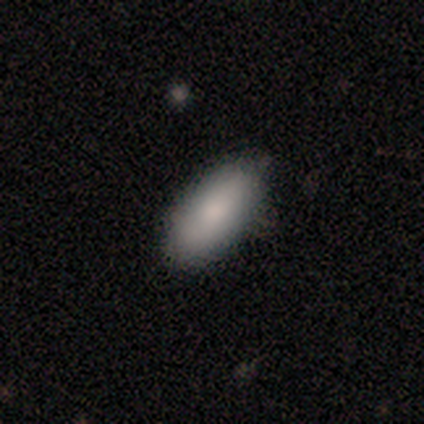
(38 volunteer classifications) Smooth or featured?
  - smooth: 68% *
  - featured or disk: 18%
  - star or artifact: 13%
How rounded?
  - in between: 81% *
  - cigar-shaped: 12%
  - round: 8%
Merging?
  - none: 82% *
  - minor disturbance: 18%
  - major disturbance: 0%
  - merger: 0%